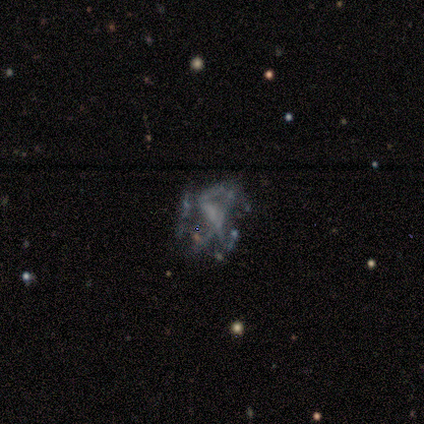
Smooth or featured? 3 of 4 (75%) said featured or disk. Edge-on disk? 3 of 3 (100%) said no. Bar? 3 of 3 (100%) said no. Spiral arms? 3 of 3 (100%) said no. Bulge size? 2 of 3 (67%) said none. Merging? 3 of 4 (75%) said major disturbance.